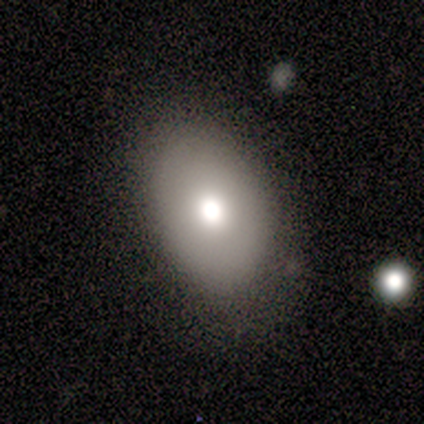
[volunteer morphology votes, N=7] smooth_or_featured: smooth (p=0.57) [alt: featured or disk p=0.29]
how_rounded: in between (p=0.75) [alt: round p=0.25]
merging: none (p=0.67) [alt: major disturbance p=0.33]